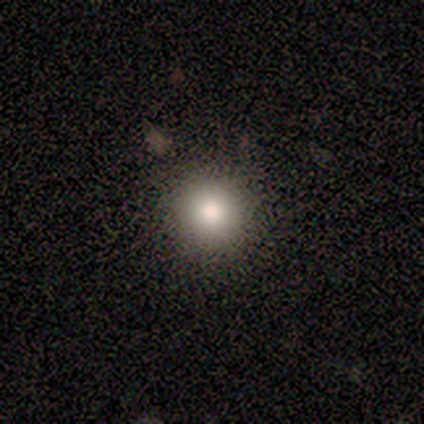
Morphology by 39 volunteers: This is clearly a smooth galaxy (82%). How rounded: clearly round (94%). Merging: clearly none (88%).